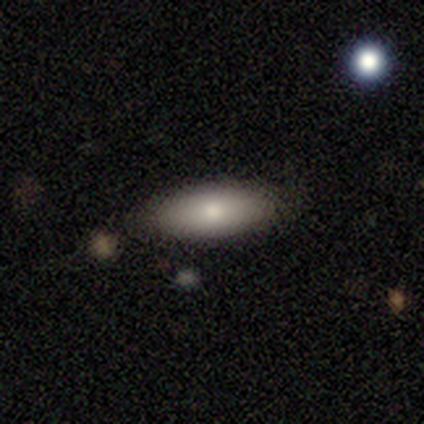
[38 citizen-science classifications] Smooth or featured? 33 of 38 (87%) said smooth. How rounded? 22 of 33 (67%) said in between. Merging? 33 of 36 (92%) said none.